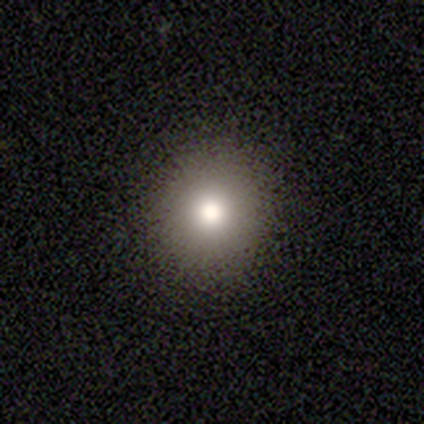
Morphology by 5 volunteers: A smooth galaxy with no disk features (60%) that is round (100%).

Vote fractions:
- Smooth or featured? smooth: 60% / featured or disk: 20% / star or artifact: 20%
- How rounded? round: 100% / in between: 0% / cigar-shaped: 0%
- Merging? none: 100% / minor disturbance: 0% / major disturbance: 0% / merger: 0%